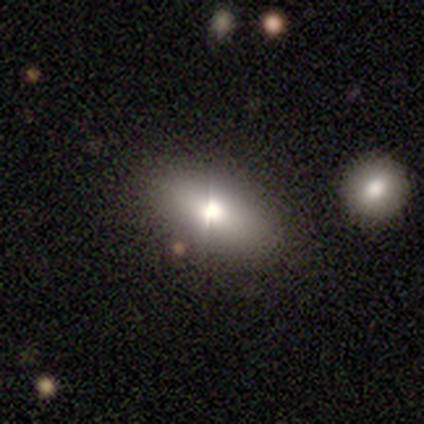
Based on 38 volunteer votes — smooth 66%, featured or disk 21%, star or artifact 13%. Down the decision tree: how rounded — in between (96%); merging — none (76%).